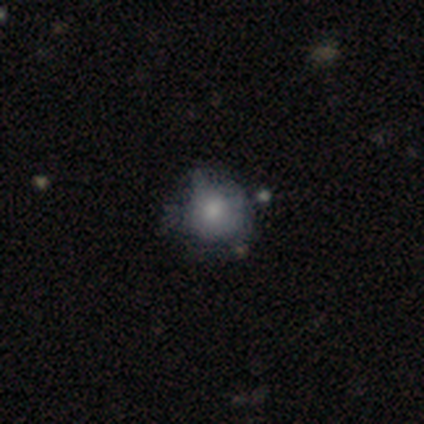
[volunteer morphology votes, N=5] smooth-or-featured: smooth: 80% | star or artifact: 20% | featured or disk: 0%
  how-rounded: round: 75% | in between: 25% | cigar-shaped: 0%
  merging: minor disturbance: 75% | none: 25% | major disturbance: 0% | merger: 0%